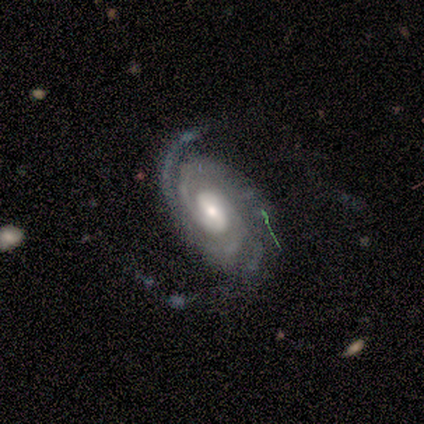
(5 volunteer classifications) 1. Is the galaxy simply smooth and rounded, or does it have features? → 80% featured or disk, 20% smooth, 0% star or artifact.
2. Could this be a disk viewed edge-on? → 75% no, 25% yes.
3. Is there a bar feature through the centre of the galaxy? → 67% strong, 33% no, 0% weak.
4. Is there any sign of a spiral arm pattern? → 100% yes, 0% no.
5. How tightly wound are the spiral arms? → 67% tight, 33% medium, 0% loose.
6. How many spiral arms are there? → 100% 2, 0% 1, 0% 3, 0% 4, 0% more than 4, 0% can't tell.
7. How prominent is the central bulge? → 67% moderate, 33% large, 0% dominant, 0% small, 0% none.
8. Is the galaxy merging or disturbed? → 60% none, 40% major disturbance, 0% minor disturbance, 0% merger.